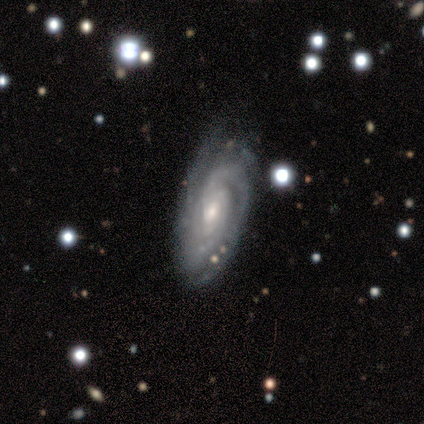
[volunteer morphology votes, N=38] featured or disk 87%, star or artifact 8%, smooth 5%. Down the decision tree: edge-on disk — no (94%); bar — no (65%); spiral arms — yes (100%); spiral arm count — 3 (29%); spiral winding — tight (77%); bulge size — small (61%); merging — none (71%).